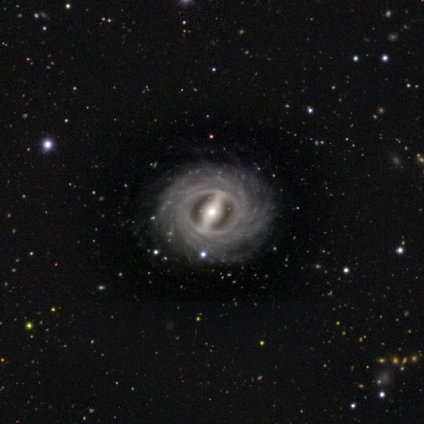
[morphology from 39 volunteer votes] Smooth or featured: featured or disk — 95% (star or artifact — 5%)
Edge-on disk: no — 89% (yes — 11%)
Bar: strong — 88% (weak — 9%)
Spiral arms: yes — 94% (no — 6%)
Spiral winding: tight — 84% (loose — 13%)
Spiral arm count: more than 4 — 68% (can't tell — 23%)
Bulge size: moderate — 64% (small — 21%)
Merging: none — 95% (minor disturbance — 3%)